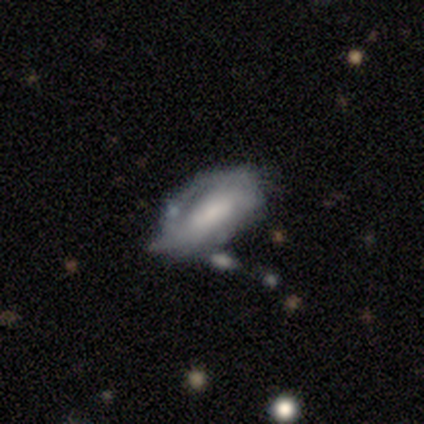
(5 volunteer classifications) Smooth or featured: featured or disk — 100%
Edge-on disk: no — 100%
Bar: weak — 40% (tied with no — 40%)
Spiral arms: no — 100%
Bulge size: moderate — 80% (large — 20%)
Merging: minor disturbance — 60% (major disturbance — 40%)